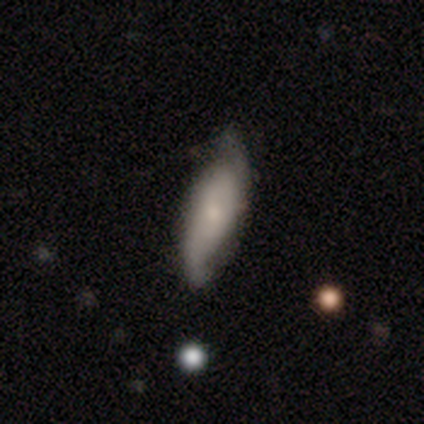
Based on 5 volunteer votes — Smooth or featured? featured or disk (60%)
Edge-on disk? no (67%)
Bar? no (100%)
Spiral arms? yes (100%)
Spiral winding? tight (100%)
Spiral arm count? can't tell (100%)
Bulge size? moderate (50%, tied with small)
Merging? none (75%)